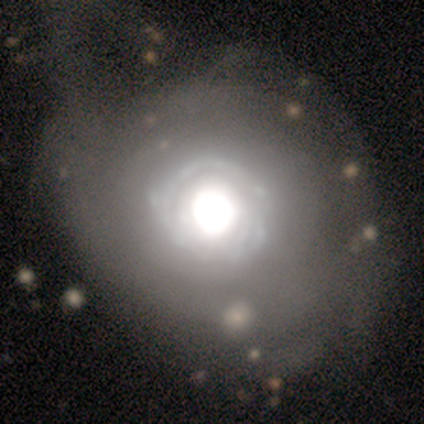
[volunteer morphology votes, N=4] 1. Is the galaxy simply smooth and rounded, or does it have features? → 100% featured or disk, 0% smooth, 0% star or artifact.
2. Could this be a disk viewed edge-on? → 100% no, 0% yes.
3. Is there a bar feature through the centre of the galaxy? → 100% no, 0% strong, 0% weak.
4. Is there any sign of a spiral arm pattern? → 75% yes, 25% no.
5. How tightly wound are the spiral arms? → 100% tight, 0% medium, 0% loose.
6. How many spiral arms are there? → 100% can't tell, 0% 1, 0% 2, 0% 3, 0% 4, 0% more than 4.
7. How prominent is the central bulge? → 50% large, 25% dominant, 25% moderate, 0% small, 0% none.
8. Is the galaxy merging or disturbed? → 75% none, 25% minor disturbance, 0% major disturbance, 0% merger.